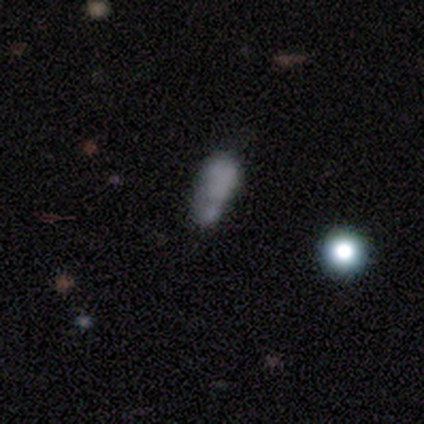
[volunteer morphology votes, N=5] type=featured or disk (60%); edge-on=no (100%); bar=no (67%); spiral arms=no (100%); bulge=none (67%); merging=none (25%, tied with minor disturbance, major disturbance and merger).